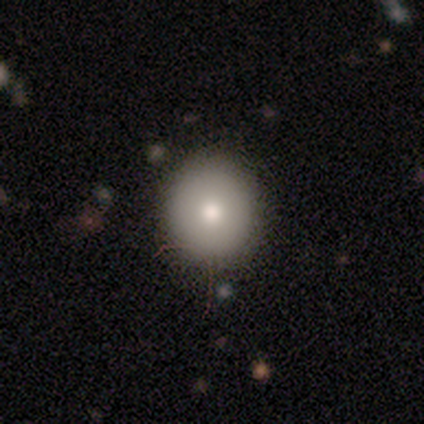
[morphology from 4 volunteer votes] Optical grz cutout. It shows a smooth galaxy with no disk features (100%) that is round (100%). Merging: none (100%).